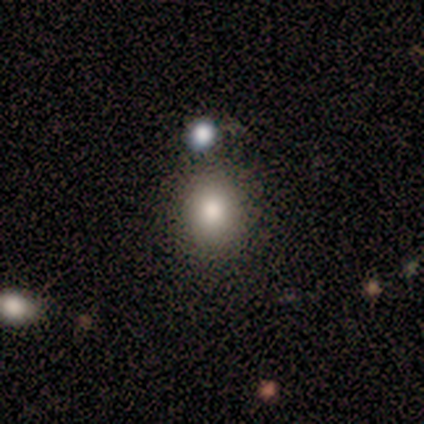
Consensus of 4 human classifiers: Smooth or featured? 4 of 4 (100%) said smooth. How rounded? 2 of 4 (50%, tied with in between) said round. Merging? 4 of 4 (100%) said none.